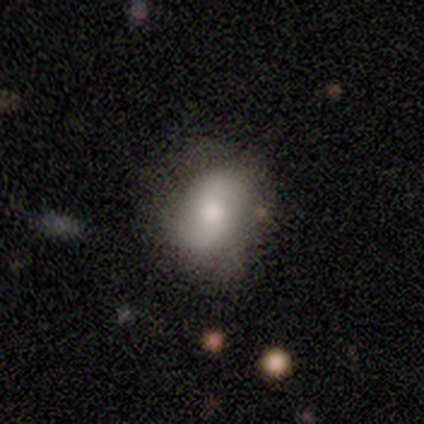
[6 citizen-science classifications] Smooth or featured?
  - smooth: 50% * (tied)
  - featured or disk: 50% * (tied)
  - star or artifact: 0%
How rounded?
  - in between: 100% *
  - round: 0%
  - cigar-shaped: 0%
Merging?
  - none: 83% *
  - major disturbance: 17%
  - minor disturbance: 0%
  - merger: 0%